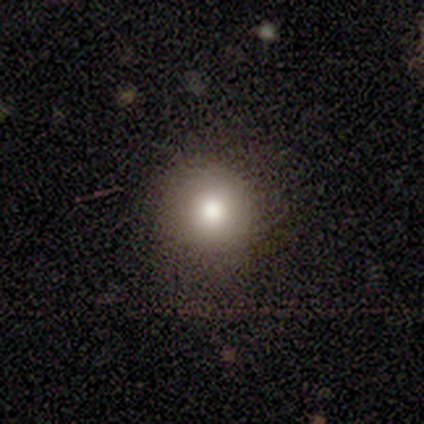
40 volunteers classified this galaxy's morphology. This is clearly a smooth galaxy (82%). How rounded: clearly round (94%). Merging: likely none (70%).